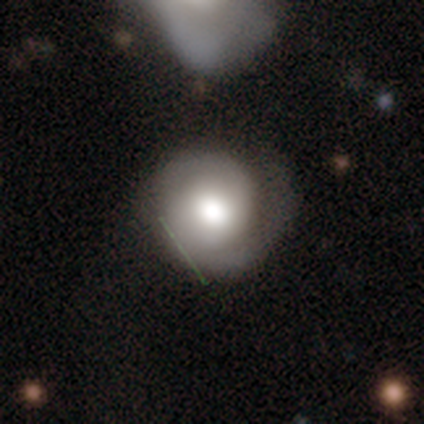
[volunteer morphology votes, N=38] A featured or disk galaxy (63%) with no bar (75%), 2 (65%) tight (65%) spiral arms (96%) and a moderate central bulge (50%). Merging: none (69%).